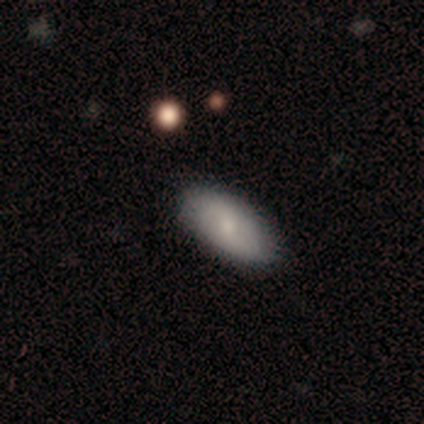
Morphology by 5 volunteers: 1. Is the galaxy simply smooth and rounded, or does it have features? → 80% smooth, 20% featured or disk, 0% star or artifact.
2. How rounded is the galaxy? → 100% in between, 0% round, 0% cigar-shaped.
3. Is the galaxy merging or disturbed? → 80% none, 20% major disturbance, 0% minor disturbance, 0% merger.